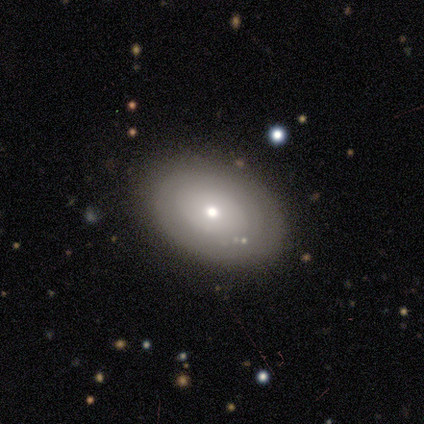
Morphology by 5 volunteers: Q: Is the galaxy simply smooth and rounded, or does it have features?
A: smooth — 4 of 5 (80%).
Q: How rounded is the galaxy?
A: in between — 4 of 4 (100%).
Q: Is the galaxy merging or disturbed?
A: none — 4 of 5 (80%).